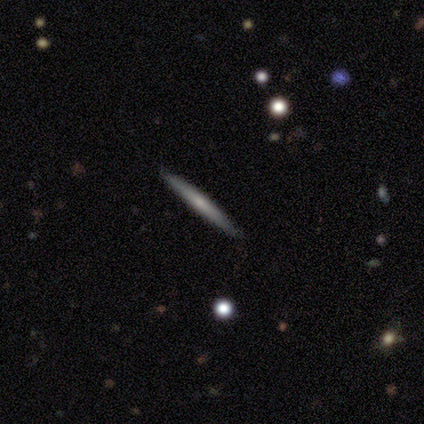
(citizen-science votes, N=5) This appears to be a featured or disk galaxy (80%) viewed edge-on (100%) with no central bulge (50%, tied with rounded). Merging: none (100%).